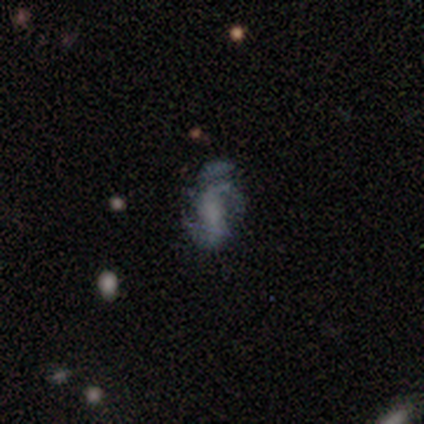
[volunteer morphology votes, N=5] smooth_or_featured: featured or disk (p=0.60) [alt: smooth p=0.20]
disk_edge_on: no (p=1.00)
bar: no (p=1.00)
has_spiral_arms: yes (p=0.67) [alt: no p=0.33]
spiral_winding: medium (p=0.50) [tied with: loose p=0.50]
spiral_arm_count: 3 (p=0.50) [tied with: can't tell p=0.50]
bulge_size: moderate (p=0.33) [tied with: small p=0.33, none p=0.33]
merging: minor disturbance (p=0.50) [alt: none p=0.25]